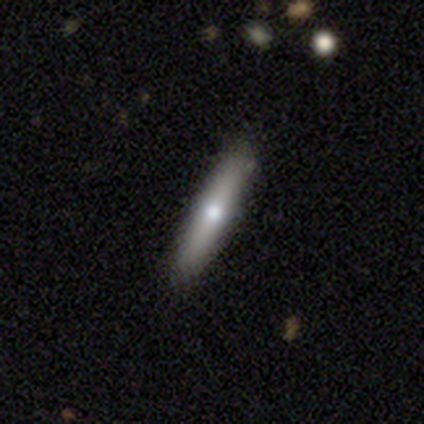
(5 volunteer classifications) Q: Smooth or featured?
A: smooth (80%); runner-up: featured or disk (20%)
Q: How rounded?
A: cigar-shaped (100%)
Q: Merging?
A: none (100%)